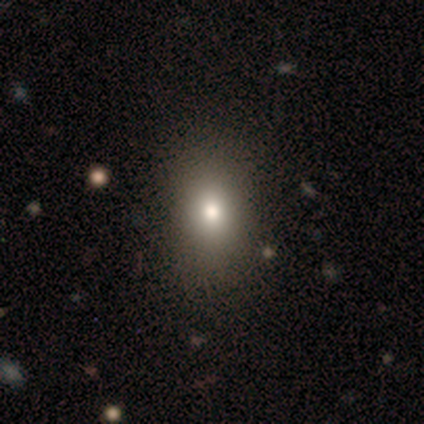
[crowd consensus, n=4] Q: Smooth or featured?
A: smooth (75%); runner-up: star or artifact (25%)
Q: How rounded?
A: in between (100%)
Q: Merging?
A: none (100%)